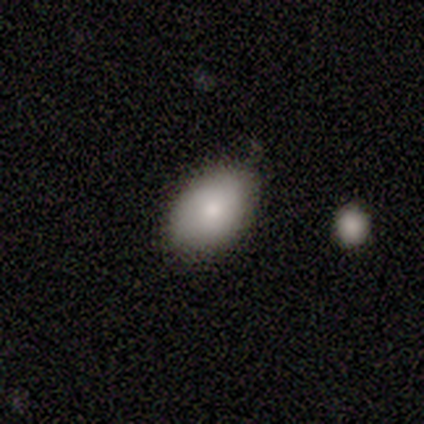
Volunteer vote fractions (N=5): This is clearly a smooth galaxy (100%). How rounded: clearly in between (100%). Merging: likely none (60%).